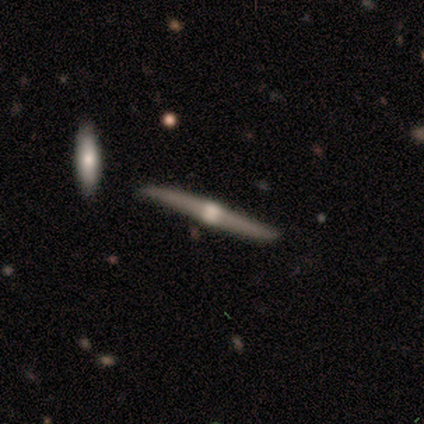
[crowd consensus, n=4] Volunteers were most divided on "smooth or featured": smooth: 75%, featured or disk: 25%, star or artifact: 0%. More confident: how rounded — cigar-shaped (100%); merging — none (75%).